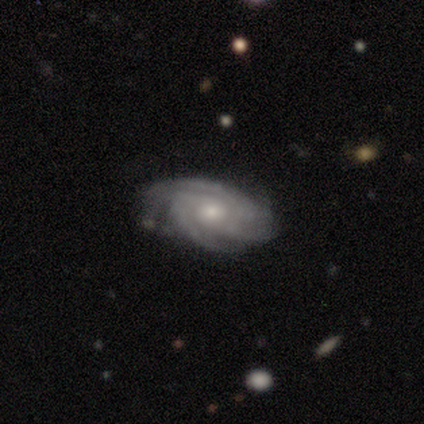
A featured or disk galaxy (74%) with no bar (81%), 3 (44%) tight (67%) spiral arms (100%) and a moderate central bulge (70%). Merging: none (77%).